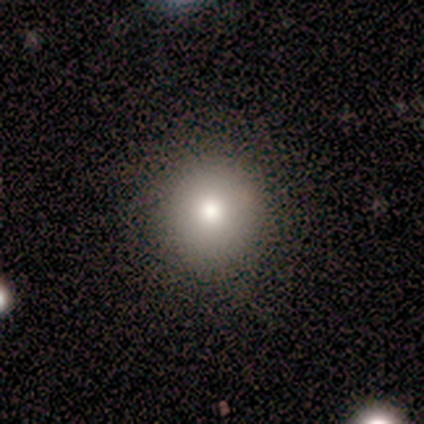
smooth 57%, featured or disk 29%, star or artifact 14%. Down the decision tree: how rounded — round (100%); merging — none (100%).